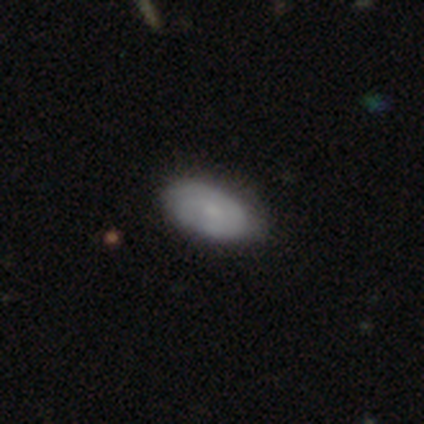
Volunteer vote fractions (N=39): smooth-or-featured: smooth: 64% | featured or disk: 36% | star or artifact: 0%
  how-rounded: in between: 96% | round: 4% | cigar-shaped: 0%
  merging: none: 79% | minor disturbance: 13% | major disturbance: 8% | merger: 0%